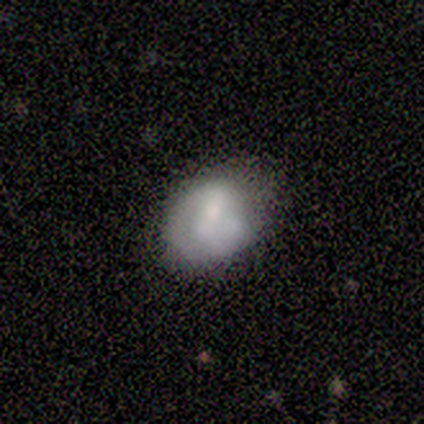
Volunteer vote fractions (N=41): Q: Smooth or featured?
A: featured or disk (56%); runner-up: smooth (41%)
Q: Edge-on disk?
A: no (91%); runner-up: yes (9%)
Q: Bar?
A: no (71%); runner-up: strong (19%)
Q: Spiral arms?
A: yes (57%); runner-up: no (43%)
Q: Spiral winding?
A: tight (67%); runner-up: medium (17%)
Q: Spiral arm count?
A: 1 (42%); tied with: 2 (42%)
Q: Bulge size?
A: moderate (52%); runner-up: none (24%)
Q: Merging?
A: none (42%); runner-up: minor disturbance (38%)